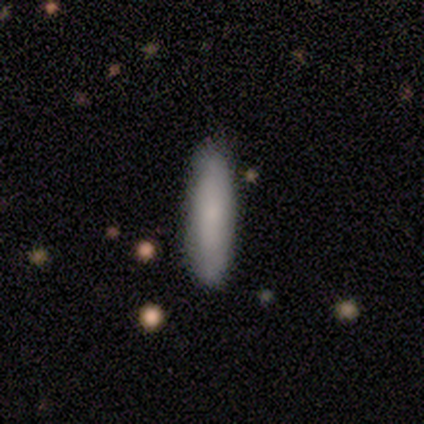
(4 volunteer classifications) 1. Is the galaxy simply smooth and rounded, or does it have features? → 50% smooth (tied), 50% featured or disk (tied), 0% star or artifact.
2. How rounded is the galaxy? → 100% cigar-shaped, 0% round, 0% in between.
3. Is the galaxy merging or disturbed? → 75% none, 25% minor disturbance, 0% major disturbance, 0% merger.